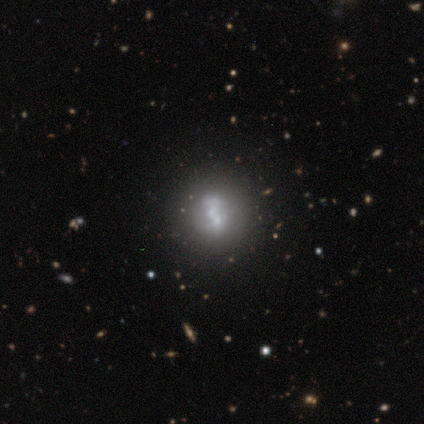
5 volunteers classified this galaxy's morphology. This appears to be a smooth galaxy with no disk features (40%, tied with star or artifact) that is in between round and cigar-shaped (100%). Merging: merger (67%).